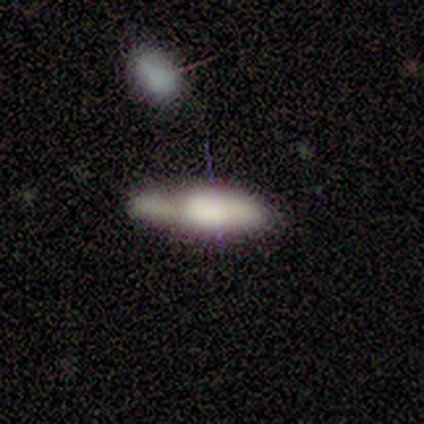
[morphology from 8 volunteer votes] Q: Smooth or featured?
A: smooth (62%); runner-up: featured or disk (38%)
Q: How rounded?
A: cigar-shaped (60%); runner-up: in between (40%)
Q: Merging?
A: none (88%); runner-up: merger (12%)